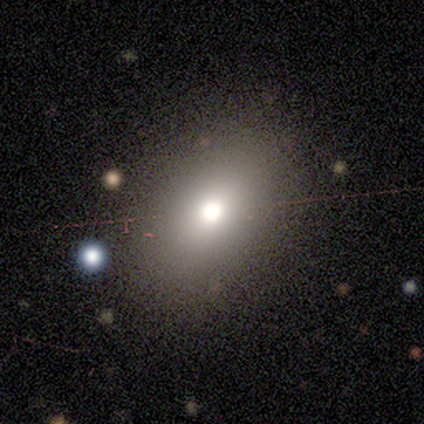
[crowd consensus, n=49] Q: Smooth or featured?
A: smooth (67%); runner-up: star or artifact (20%)
Q: How rounded?
A: in between (70%); runner-up: round (27%)
Q: Merging?
A: none (85%); runner-up: minor disturbance (10%)